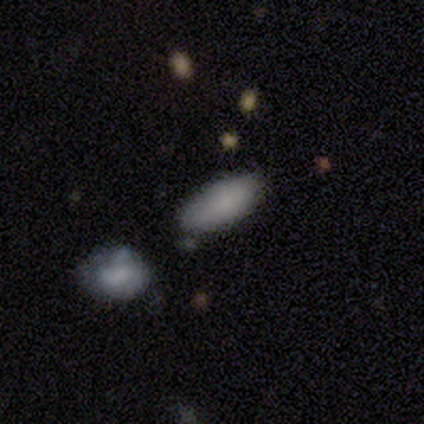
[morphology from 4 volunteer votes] Smooth or featured?
  - featured or disk: 75% *
  - smooth: 25%
  - star or artifact: 0%
Edge-on disk?
  - no: 67% *
  - yes: 33%
Bar?
  - no: 100% *
  - strong: 0%
  - weak: 0%
Spiral arms?
  - no: 100% *
  - yes: 0%
Bulge size?
  - small: 50% * (tied)
  - none: 50% * (tied)
  - dominant: 0%
  - large: 0%
  - moderate: 0%
Merging?
  - none: 75% *
  - minor disturbance: 25%
  - major disturbance: 0%
  - merger: 0%